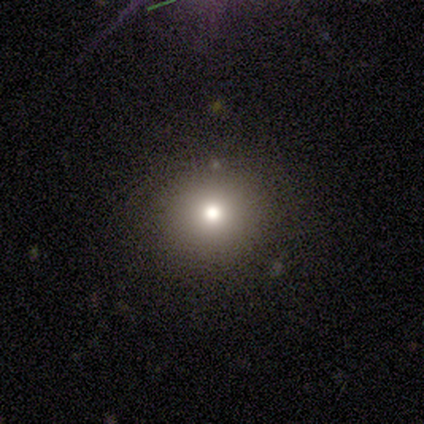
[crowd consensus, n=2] Overall: smooth (50%, tied with star or artifact). How rounded: round (100%). Merging: none (100%).